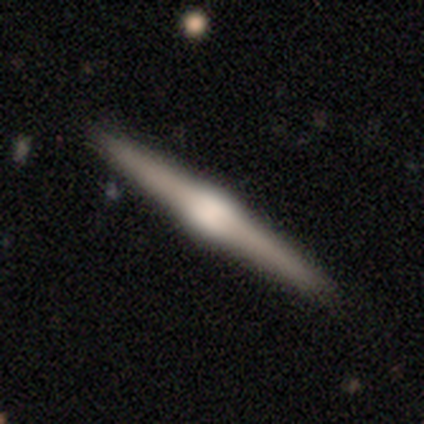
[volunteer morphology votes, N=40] featured or disk 78%, smooth 20%, star or artifact 2%. Down the decision tree: edge-on disk — yes (100%); edge-on bulge — rounded (90%); merging — none (90%).